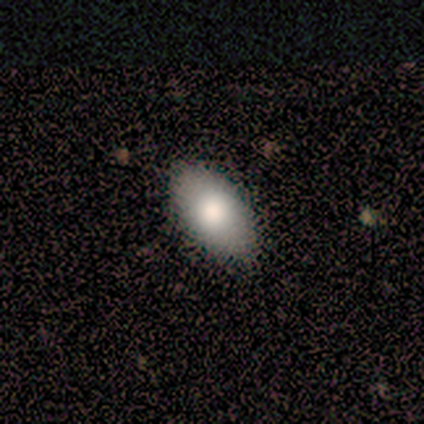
Smooth or featured: smooth — 80% (featured or disk — 20%)
How rounded: in between — 100%
Merging: none — 100%